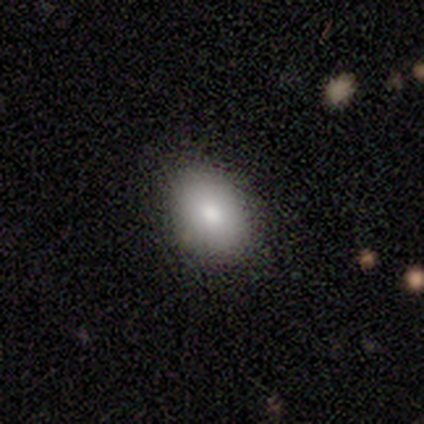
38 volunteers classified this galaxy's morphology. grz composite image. It shows a smooth galaxy with no disk features (82%) that is in between round and cigar-shaped (74%). Merging: none (76%).